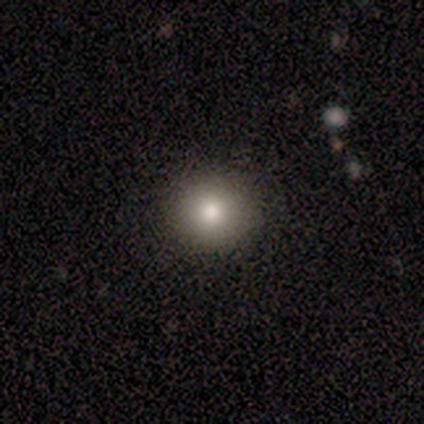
Smooth or featured?
  - smooth: 70% *
  - star or artifact: 30%
  - featured or disk: 0%
How rounded?
  - round: 100% *
  - in between: 0%
  - cigar-shaped: 0%
Merging?
  - none: 86% *
  - minor disturbance: 14%
  - major disturbance: 0%
  - merger: 0%